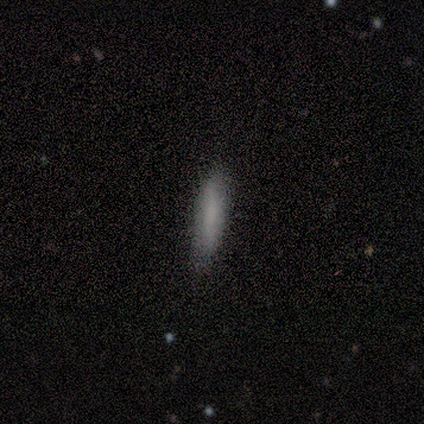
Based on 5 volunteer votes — Smooth or featured: smooth — 80% (featured or disk — 20%)
How rounded: cigar-shaped — 75% (in between — 25%)
Merging: none — 80% (minor disturbance — 20%)